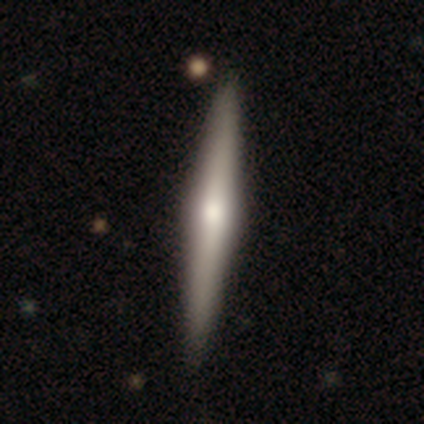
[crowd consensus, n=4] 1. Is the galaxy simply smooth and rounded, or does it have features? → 75% featured or disk, 25% smooth, 0% star or artifact.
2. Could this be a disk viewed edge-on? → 100% yes, 0% no.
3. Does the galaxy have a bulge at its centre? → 100% rounded, 0% boxy, 0% none.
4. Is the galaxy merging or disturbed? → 75% none, 25% minor disturbance, 0% major disturbance, 0% merger.